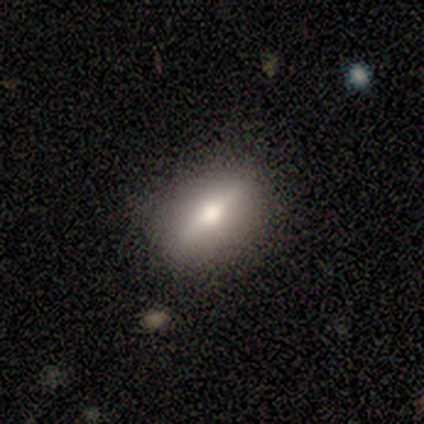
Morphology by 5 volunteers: Smooth or featured? 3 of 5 (60%) said featured or disk. Edge-on disk? 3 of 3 (100%) said yes. Edge-on bulge? 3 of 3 (100%) said rounded. Merging? 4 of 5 (80%) said none.